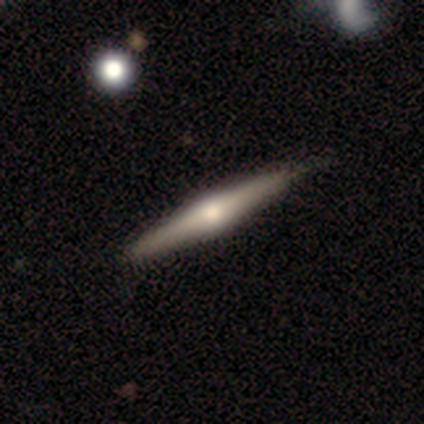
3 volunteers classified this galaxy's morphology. smooth_or_featured: featured or disk (p=0.67) [alt: smooth p=0.33]
disk_edge_on: yes (p=1.00)
edge_on_bulge: rounded (p=1.00)
merging: none (p=0.67) [alt: minor disturbance p=0.33]